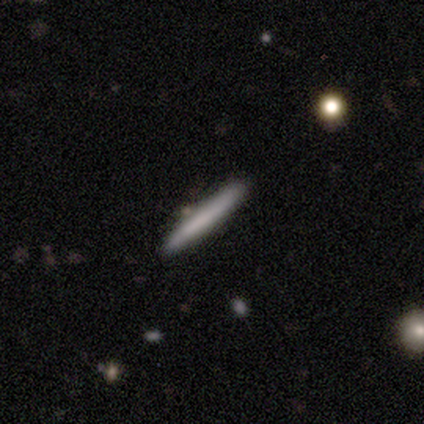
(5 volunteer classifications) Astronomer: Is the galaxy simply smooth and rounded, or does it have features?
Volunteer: smooth — 80%.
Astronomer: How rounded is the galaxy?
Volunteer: cigar-shaped — 75%.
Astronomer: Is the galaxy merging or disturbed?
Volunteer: none — 80%.